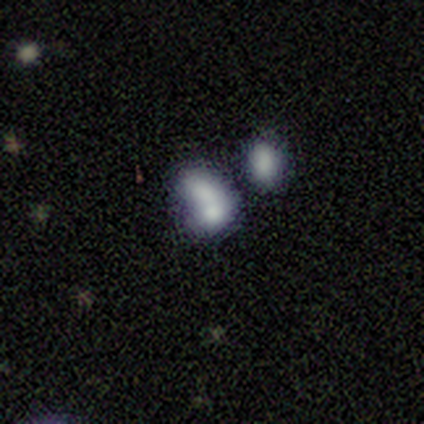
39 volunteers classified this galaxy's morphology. A smooth galaxy with no disk features (56%) that is in between round and cigar-shaped (82%).

Vote fractions:
- Smooth or featured? smooth: 56% / featured or disk: 28% / star or artifact: 15%
- How rounded? in between: 82% / round: 18% / cigar-shaped: 0%
- Merging? merger: 58% / none: 18% / minor disturbance: 15% / major disturbance: 9%